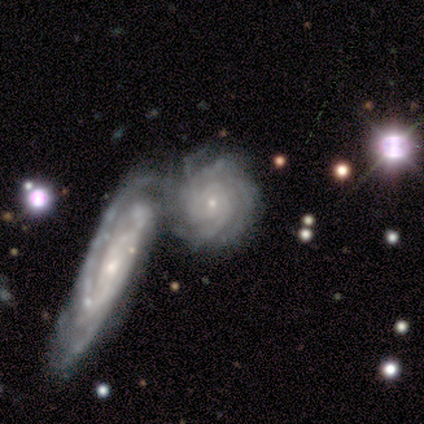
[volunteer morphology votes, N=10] A featured or disk galaxy (90%) with no bar (89%), tight (100%) spiral arms (100%) and a small central bulge (89%). Merging: merger (70%).